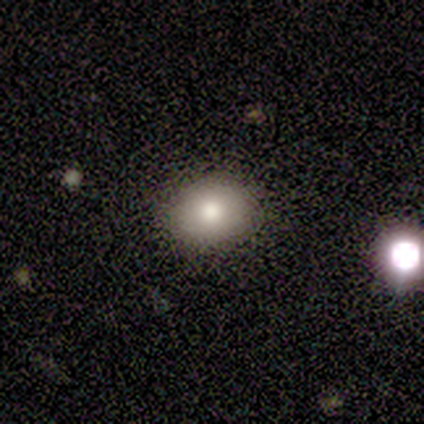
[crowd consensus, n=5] smooth-or-featured: smooth: 60% | featured or disk: 40% | star or artifact: 0%
  how-rounded: round: 100% | in between: 0% | cigar-shaped: 0%
  merging: none: 80% | minor disturbance: 20% | major disturbance: 0% | merger: 0%